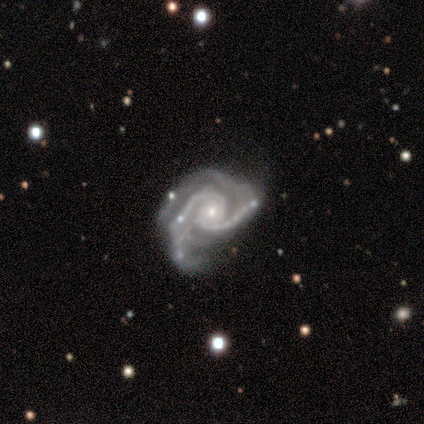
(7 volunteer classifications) smooth_or_featured: featured or disk (p=1.00)
disk_edge_on: no (p=1.00)
bar: no (p=0.71) [alt: strong p=0.14]
has_spiral_arms: yes (p=1.00)
spiral_winding: medium (p=0.43) [tied with: loose p=0.43]
spiral_arm_count: 2 (p=0.71) [alt: 4 p=0.14]
bulge_size: small (p=1.00)
merging: minor disturbance (p=0.86) [alt: none p=0.14]